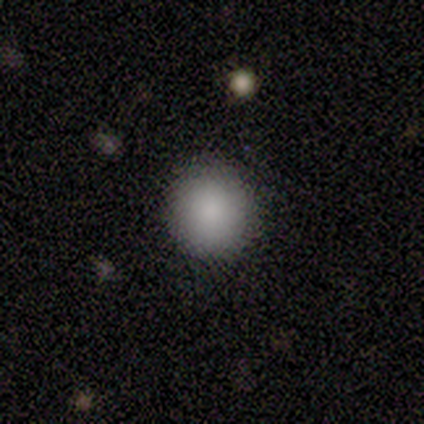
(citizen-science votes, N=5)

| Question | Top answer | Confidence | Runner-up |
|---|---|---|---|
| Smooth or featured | smooth | 100% | — |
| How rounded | round | 100% | — |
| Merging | none | 80% | minor disturbance (20%) |